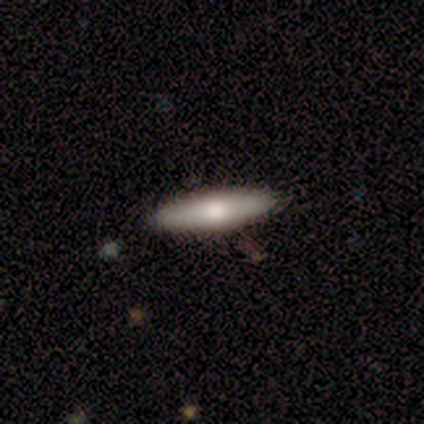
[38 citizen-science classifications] smooth_or_featured: smooth (p=0.68) [alt: featured or disk p=0.29]
how_rounded: cigar-shaped (p=0.85) [alt: in between p=0.15]
merging: none (p=0.95) [alt: major disturbance p=0.05]